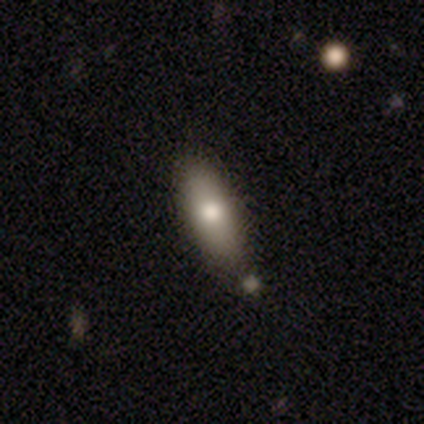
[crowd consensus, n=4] Volunteers were most divided on "how rounded": in between: 67%, cigar-shaped: 33%, round: 0%. More confident: smooth or featured — smooth (75%); merging — none (75%).